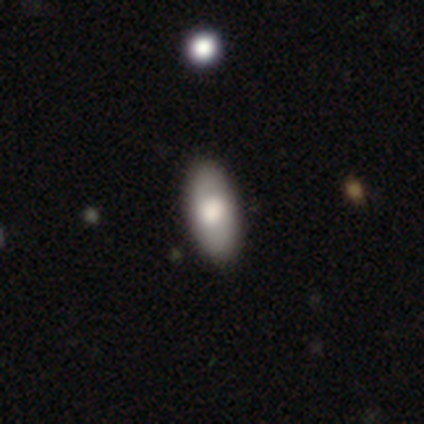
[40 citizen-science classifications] Volunteers were most divided on "merging": none: 59%, minor disturbance: 8%, merger: 5%, major disturbance: 3%. More confident: how rounded — in between (88%); smooth or featured — smooth (85%).